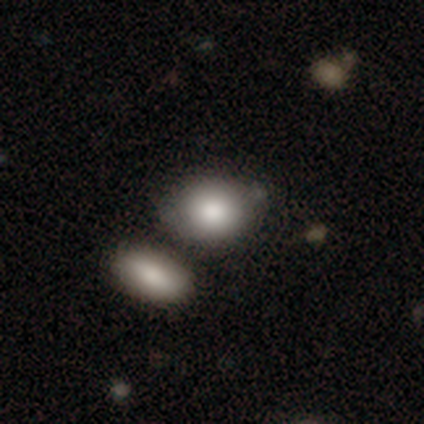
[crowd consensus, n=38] Smooth or featured?
  - smooth: 82% *
  - featured or disk: 18%
  - star or artifact: 0%
How rounded?
  - in between: 55% *
  - round: 45%
  - cigar-shaped: 0%
Merging?
  - none: 58% *
  - merger: 26%
  - minor disturbance: 13%
  - major disturbance: 3%